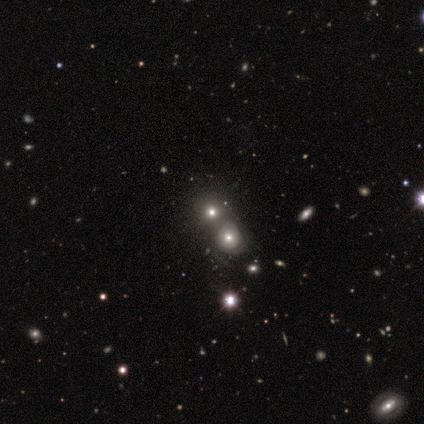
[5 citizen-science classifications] smooth_or_featured: smooth (p=0.60) [alt: featured or disk p=0.20]
how_rounded: round (p=0.67) [alt: in between p=0.33]
merging: merger (p=0.75) [alt: none p=0.25]